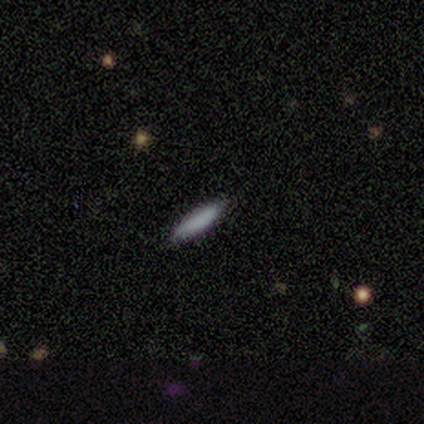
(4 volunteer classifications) Smooth or featured: smooth — 50% (tied with star or artifact — 50%)
How rounded: cigar-shaped — 100%
Merging: none — 100%